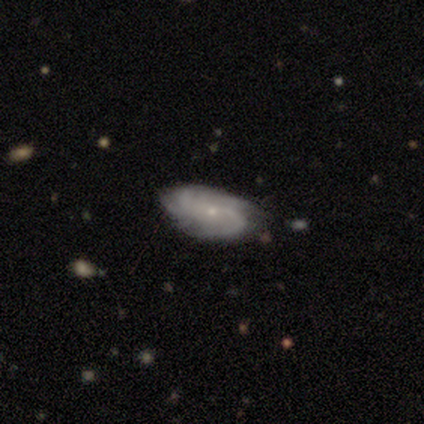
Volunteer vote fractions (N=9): Smooth or featured: featured or disk — 78% (smooth — 11%)
Edge-on disk: no — 100%
Bar: no — 57% (weak — 43%)
Spiral arms: yes — 86% (no — 14%)
Spiral winding: tight — 50% (medium — 33%)
Spiral arm count: 2 — 33% (tied with can't tell — 33%)
Bulge size: small — 100%
Merging: none — 75% (minor disturbance — 12%)